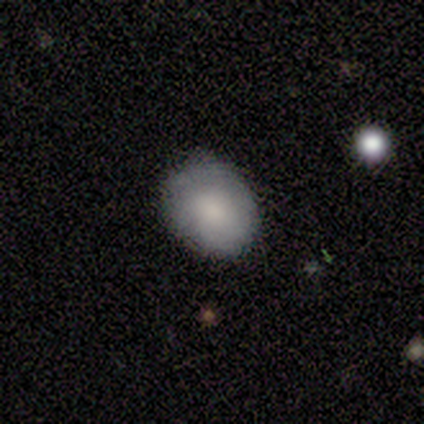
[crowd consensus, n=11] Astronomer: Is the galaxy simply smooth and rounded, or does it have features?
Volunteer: smooth — 82%.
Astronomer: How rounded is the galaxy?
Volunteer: round — 78%.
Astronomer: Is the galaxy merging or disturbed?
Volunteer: none — 91%.